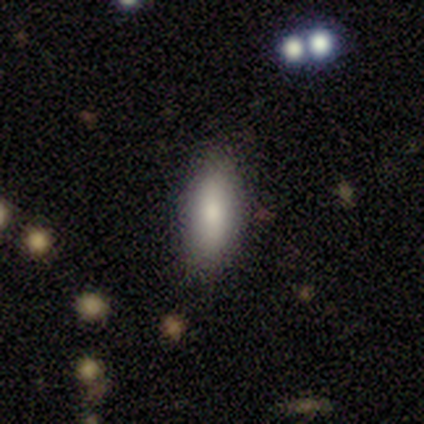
Overall: smooth (92%). How rounded: in between (78%). Merging: none (89%).